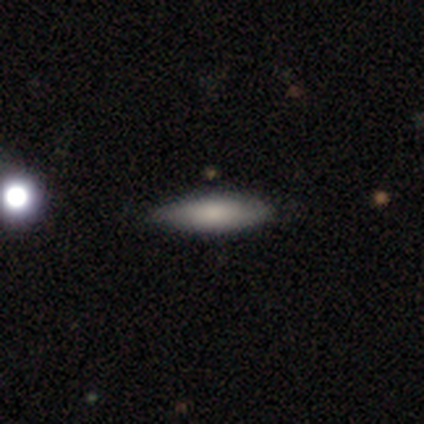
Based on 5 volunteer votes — Smooth or featured?
  - smooth: 80% *
  - featured or disk: 20%
  - star or artifact: 0%
How rounded?
  - in between: 50% * (tied)
  - cigar-shaped: 50% * (tied)
  - round: 0%
Merging?
  - none: 100% *
  - minor disturbance: 0%
  - major disturbance: 0%
  - merger: 0%